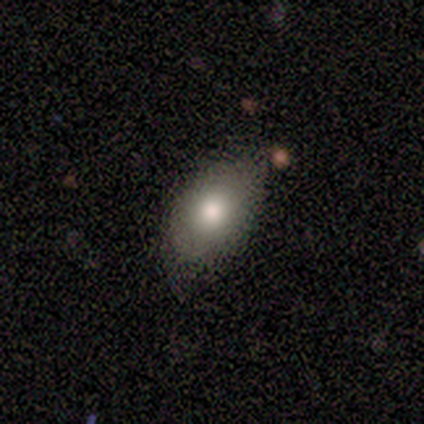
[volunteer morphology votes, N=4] Smooth or featured: smooth — 50% (tied with featured or disk — 50%)
How rounded: in between — 100%
Merging: none — 75% (minor disturbance — 25%)